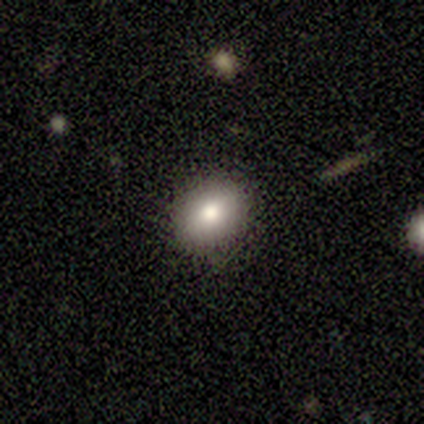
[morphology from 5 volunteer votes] This appears to be a smooth galaxy with no disk features (60%) that is in between round and cigar-shaped (100%). Merging: none (75%).